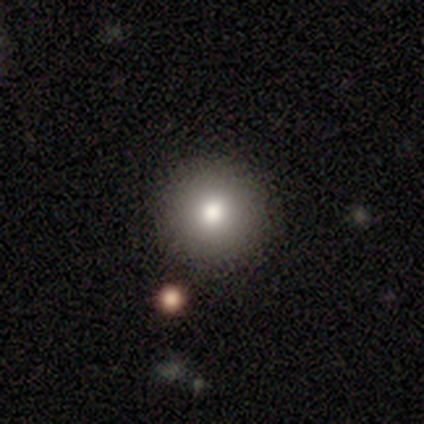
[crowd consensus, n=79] This appears to be a smooth galaxy with no disk features (70%) that is round (98%). Merging: none (91%).